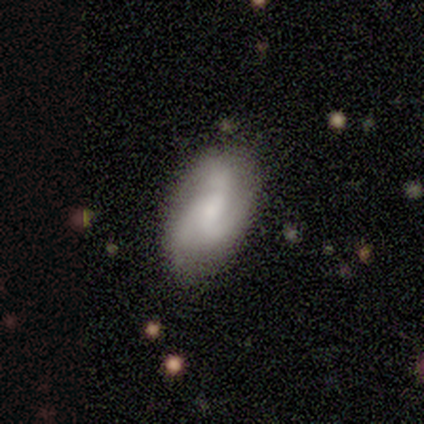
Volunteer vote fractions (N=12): Morphology: type=featured or disk (58%); edge-on=no (100%); bar=weak (71%); spiral arms=yes (100%); winding=tight (43%, tied with medium); arm count=3 (100%); bulge=small (57%); merging=none (75%).